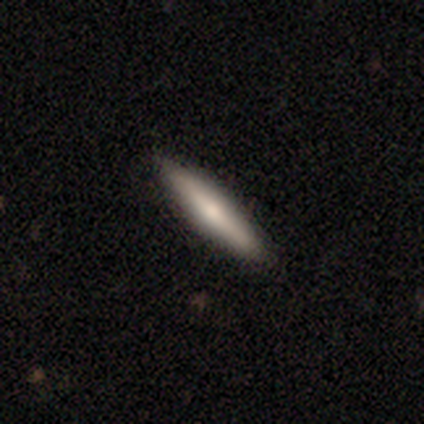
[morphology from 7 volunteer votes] smooth_or_featured: smooth (p=0.71) [alt: featured or disk p=0.29]
how_rounded: cigar-shaped (p=0.80) [alt: in between p=0.20]
merging: none (p=1.00)